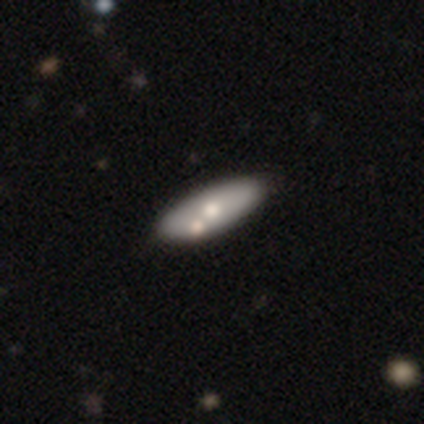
Smooth or featured?
  - featured or disk: 60% *
  - smooth: 40%
  - star or artifact: 0%
Edge-on disk?
  - no: 67% *
  - yes: 33%
Bar?
  - no: 100% *
  - strong: 0%
  - weak: 0%
Spiral arms?
  - no: 100% *
  - yes: 0%
Bulge size?
  - moderate: 50% * (tied)
  - small: 50% * (tied)
  - dominant: 0%
  - large: 0%
  - none: 0%
Merging?
  - none: 80% *
  - merger: 20%
  - minor disturbance: 0%
  - major disturbance: 0%